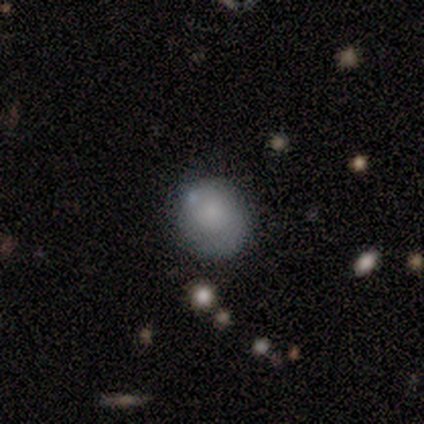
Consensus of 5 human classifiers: Smooth or featured? smooth (80%)
How rounded? round (75%)
Merging? none (75%)